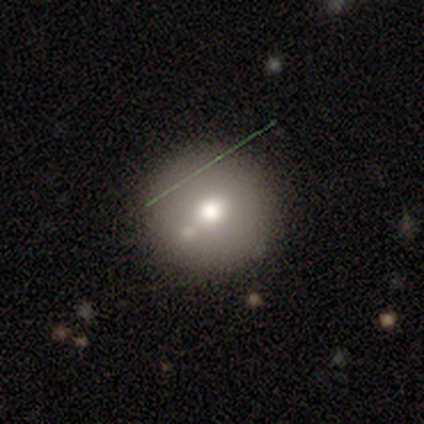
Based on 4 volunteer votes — Smooth or featured? smooth (75%)
How rounded? round (100%)
Merging? none (50%)